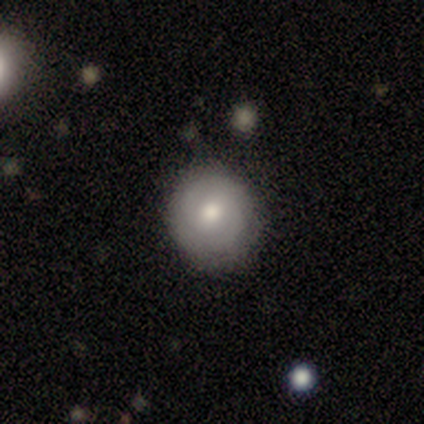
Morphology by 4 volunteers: type=smooth (50%, tied with featured or disk); roundness=round (100%); merging=none (100%).